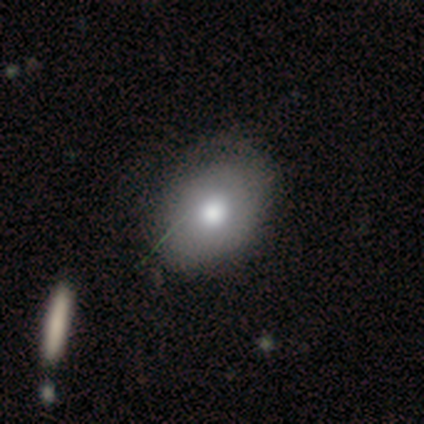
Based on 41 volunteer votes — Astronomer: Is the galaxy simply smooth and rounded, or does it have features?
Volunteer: smooth — 78%.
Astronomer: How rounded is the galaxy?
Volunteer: in between — 66%.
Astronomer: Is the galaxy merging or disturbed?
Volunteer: none — 61%.